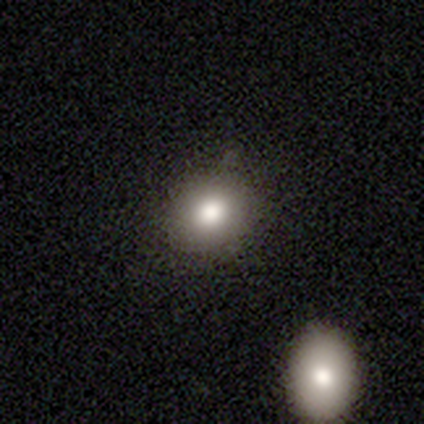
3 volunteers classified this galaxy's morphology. Smooth or featured: smooth — 33% (tied with featured or disk — 33%; star or artifact — 33%)
How rounded: round — 100%
Merging: minor disturbance — 100%